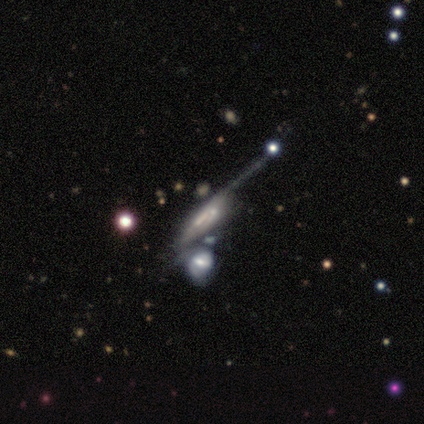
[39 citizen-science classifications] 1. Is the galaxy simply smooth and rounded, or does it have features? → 67% featured or disk, 21% smooth, 13% star or artifact.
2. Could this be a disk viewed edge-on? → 62% no, 38% yes.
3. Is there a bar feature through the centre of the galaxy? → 62% no, 25% weak, 12% strong.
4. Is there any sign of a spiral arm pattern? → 69% yes, 31% no.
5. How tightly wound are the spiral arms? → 36% tight (tied), 36% medium (tied), 27% loose.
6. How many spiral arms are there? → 64% can't tell, 18% 2, 9% 1, 9% 3, 0% 4, 0% more than 4.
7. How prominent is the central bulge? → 44% none, 31% small, 12% large, 12% moderate, 0% dominant.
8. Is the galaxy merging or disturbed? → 38% major disturbance (tied), 38% merger (tied), 18% none, 6% minor disturbance.